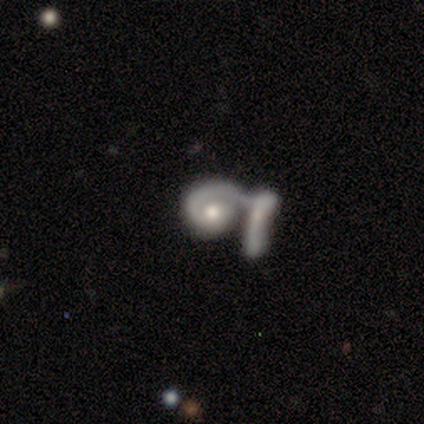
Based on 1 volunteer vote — Morphology: type=featured or disk (100%); edge-on=no (100%); bar=no (100%); spiral arms=no (100%); bulge=moderate (100%); merging=merger (100%).